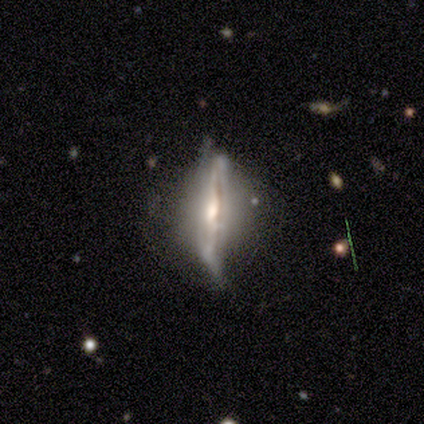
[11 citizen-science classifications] A featured or disk galaxy (91%) viewed edge-on (90%) with a rounded central bulge (100%). Merging: none (64%).